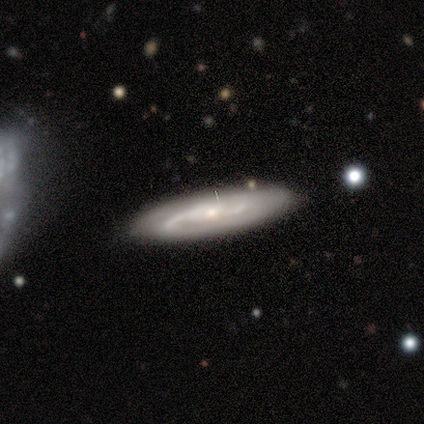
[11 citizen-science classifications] Overall: featured or disk (91%). Edge-on disk: no (90%). Bar: no (56%; strong 33%). Spiral arms: yes (100%). Spiral arm count: 2 (67%). Spiral winding: medium (44%; tight 33%). Bulge size: small (56%; moderate 44%). Merging: none (82%).